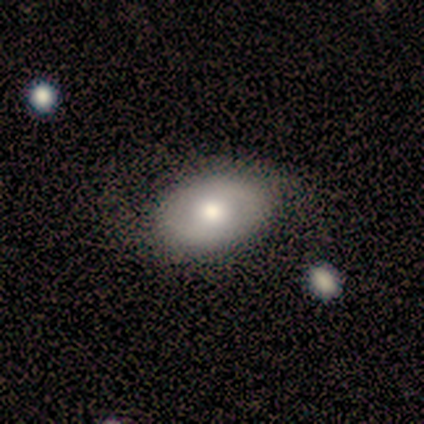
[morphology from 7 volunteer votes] type=smooth (57%); roundness=in between (75%); merging=none (71%).